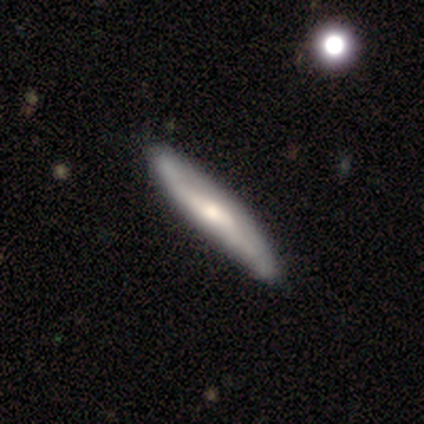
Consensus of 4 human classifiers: smooth 50% (tied), featured or disk 50% (tied), star or artifact 0%. Down the decision tree: how rounded — in between (50%, tied with cigar-shaped); merging — none (100%).